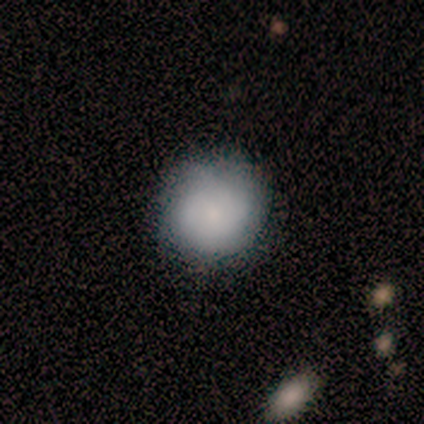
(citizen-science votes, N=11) Overall: smooth (82%). How rounded: round (78%). Merging: none (73%).